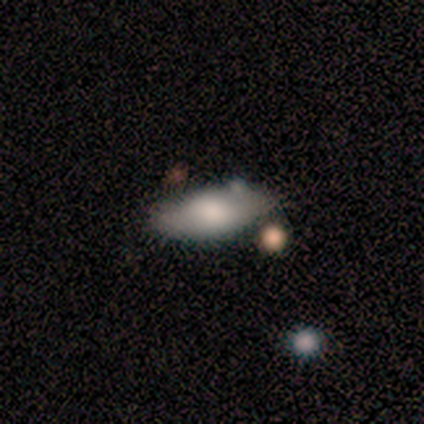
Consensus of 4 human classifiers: This is clearly a smooth galaxy (100%). How rounded: likely in between (75%). Merging: possibly none (50%).